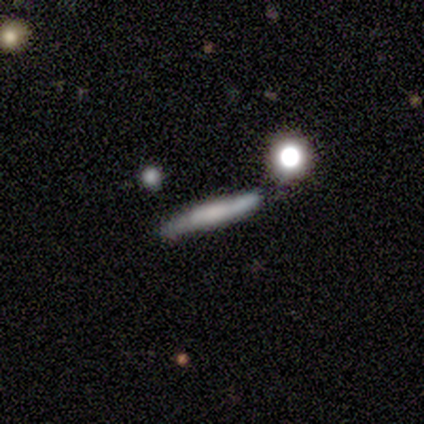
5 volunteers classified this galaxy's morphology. This is likely a featured or disk galaxy (60%). It is clearly viewed edge-on (100%). Edge-on bulge: clearly boxy (100%). Merging: clearly none (80%).